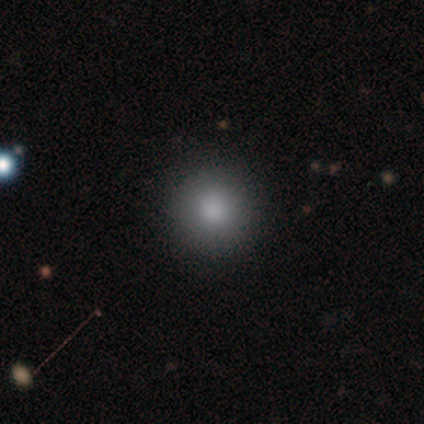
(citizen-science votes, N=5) Smooth or featured?
  - smooth: 100% *
  - featured or disk: 0%
  - star or artifact: 0%
How rounded?
  - round: 100% *
  - in between: 0%
  - cigar-shaped: 0%
Merging?
  - none: 100% *
  - minor disturbance: 0%
  - major disturbance: 0%
  - merger: 0%